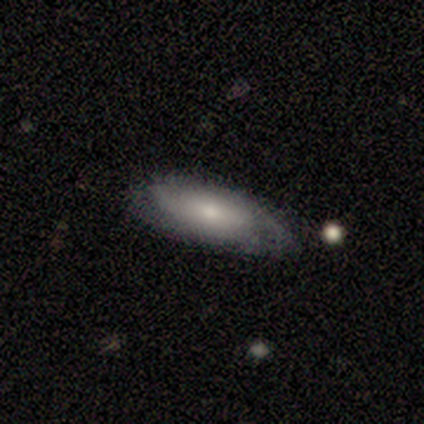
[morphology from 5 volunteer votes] Smooth or featured: featured or disk — 60% (smooth — 40%)
Edge-on disk: no — 67% (yes — 33%)
Bar: no — 100%
Spiral arms: yes — 100%
Spiral winding: tight — 50% (tied with medium — 50%)
Spiral arm count: 2 — 50% (tied with 3 — 50%)
Bulge size: small — 100%
Merging: none — 80% (minor disturbance — 20%)